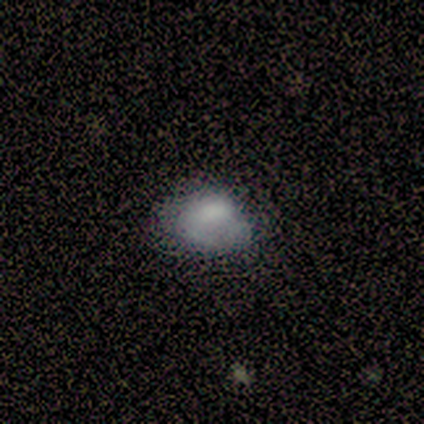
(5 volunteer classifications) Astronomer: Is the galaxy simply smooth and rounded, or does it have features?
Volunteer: smooth — 60%.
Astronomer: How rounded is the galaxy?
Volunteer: in between — 100%.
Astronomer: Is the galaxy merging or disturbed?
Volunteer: none — 50%.